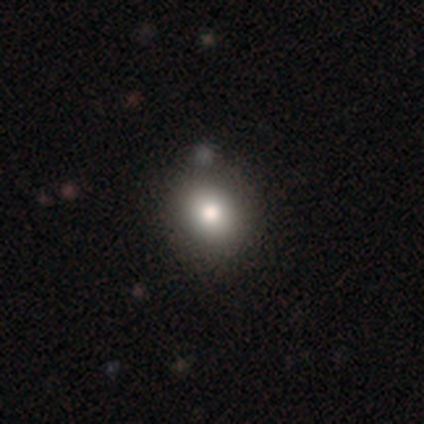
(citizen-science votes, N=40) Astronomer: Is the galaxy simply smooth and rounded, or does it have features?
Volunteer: smooth — 75%.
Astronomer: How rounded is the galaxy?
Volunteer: round — 60% (runner-up: in between, 40%).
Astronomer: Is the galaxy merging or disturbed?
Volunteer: none — 66%.